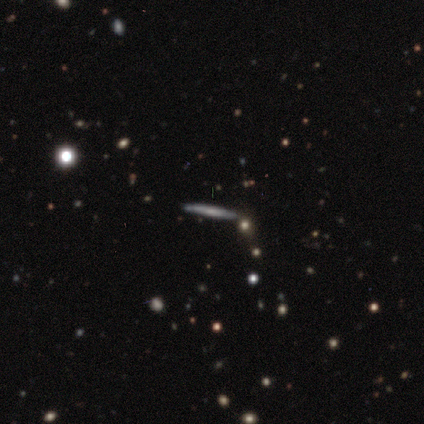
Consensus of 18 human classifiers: Smooth or featured? 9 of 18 (50%, tied with featured or disk) said smooth. How rounded? 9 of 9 (100%) said cigar-shaped. Merging? 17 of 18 (94%) said none.